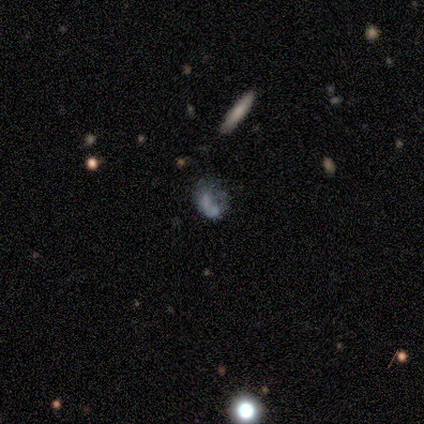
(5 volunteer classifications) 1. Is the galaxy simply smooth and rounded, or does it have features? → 60% featured or disk, 20% smooth, 20% star or artifact.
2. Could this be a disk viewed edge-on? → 100% no, 0% yes.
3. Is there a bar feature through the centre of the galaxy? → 67% no, 33% weak, 0% strong.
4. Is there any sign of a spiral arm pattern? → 100% yes, 0% no.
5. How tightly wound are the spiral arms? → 67% medium, 33% tight, 0% loose.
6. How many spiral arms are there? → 100% 1, 0% 2, 0% 3, 0% 4, 0% more than 4, 0% can't tell.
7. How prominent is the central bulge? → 67% none, 33% small, 0% dominant, 0% large, 0% moderate.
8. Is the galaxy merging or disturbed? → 50% none (tied), 50% major disturbance (tied), 0% minor disturbance, 0% merger.